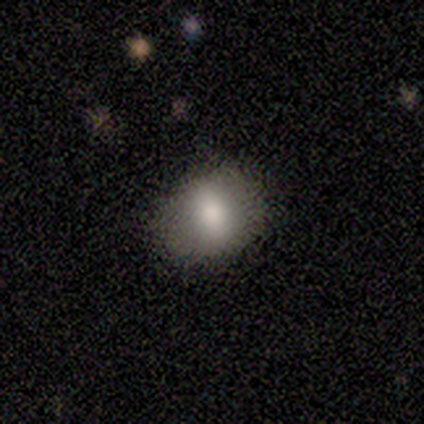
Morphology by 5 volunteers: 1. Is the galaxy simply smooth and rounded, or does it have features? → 60% smooth, 20% featured or disk, 20% star or artifact.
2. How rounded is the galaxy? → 100% in between, 0% round, 0% cigar-shaped.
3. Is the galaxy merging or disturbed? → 75% none, 25% minor disturbance, 0% major disturbance, 0% merger.